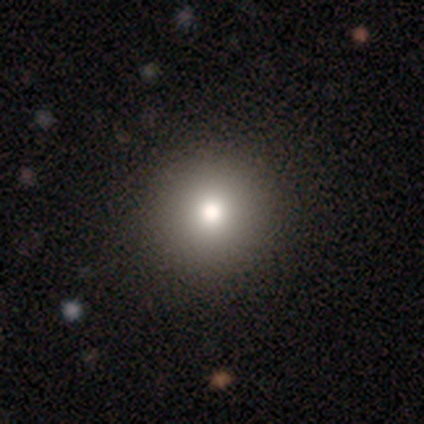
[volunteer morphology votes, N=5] A smooth galaxy with no disk features (40%, tied with star or artifact) that is round (100%). Merging: none (100%).